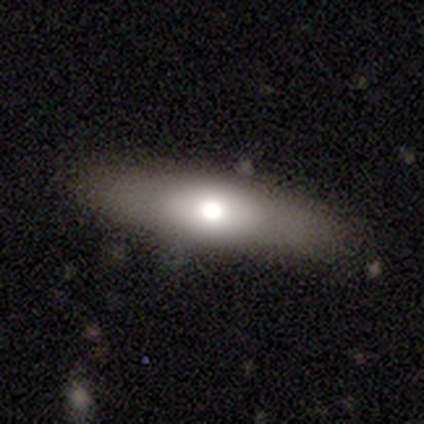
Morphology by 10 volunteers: Q: Smooth or featured?
A: smooth (60%); runner-up: featured or disk (20%)
Q: How rounded?
A: cigar-shaped (50%); runner-up: in between (33%)
Q: Merging?
A: none (88%); runner-up: minor disturbance (12%)